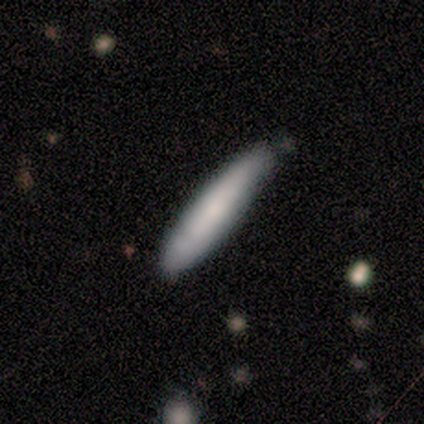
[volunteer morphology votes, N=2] Q: Smooth or featured?
A: smooth (100%)
Q: How rounded?
A: cigar-shaped (100%)
Q: Merging?
A: none (100%)